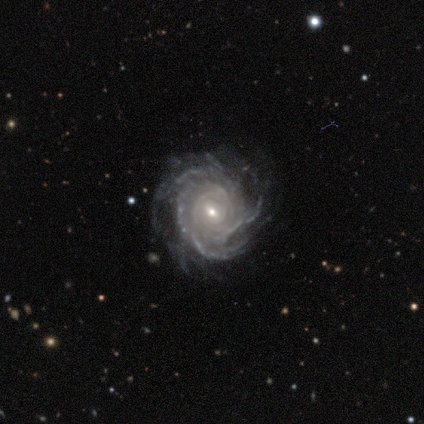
Smooth or featured: featured or disk — 97% (smooth — 3%)
Edge-on disk: no — 97% (yes — 3%)
Bar: weak — 49% (no — 35%)
Spiral arms: yes — 100%
Spiral winding: tight — 78% (medium — 22%)
Spiral arm count: can't tell — 38% (more than 4 — 30%)
Bulge size: small — 76% (moderate — 19%)
Merging: none — 79% (minor disturbance — 18%)